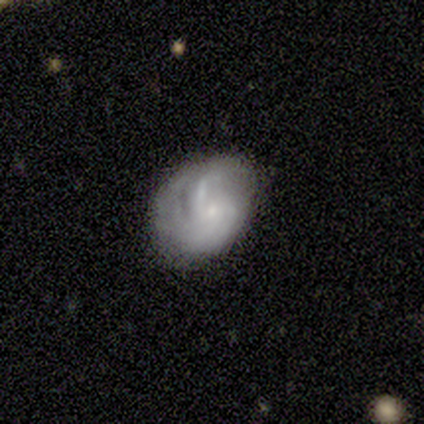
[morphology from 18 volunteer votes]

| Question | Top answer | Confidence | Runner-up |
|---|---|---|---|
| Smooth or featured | featured or disk | 61% | smooth (39%) |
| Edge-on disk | no | 100% | — |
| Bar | no | 82% | strong (9%) |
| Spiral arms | yes | 82% | no (18%) |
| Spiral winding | tight | 67% | loose (22%) |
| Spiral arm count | can't tell | 67% | 2 (22%) |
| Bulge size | small | 73% | none (18%) |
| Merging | minor disturbance | 50% | none (28%) |